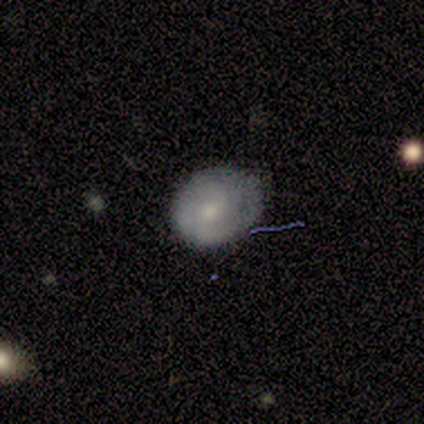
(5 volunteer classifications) smooth-or-featured: smooth: 60% | featured or disk: 40% | star or artifact: 0%
  how-rounded: round: 67% | in between: 33% | cigar-shaped: 0%
  merging: none: 60% | minor disturbance: 20% | major disturbance: 20% | merger: 0%